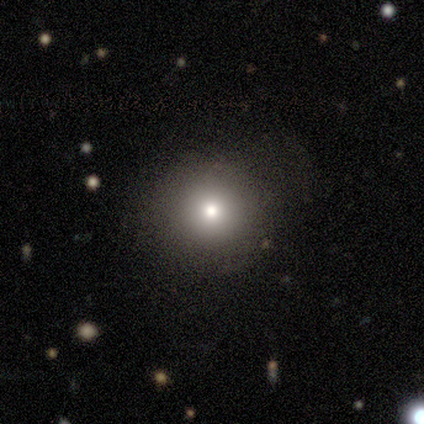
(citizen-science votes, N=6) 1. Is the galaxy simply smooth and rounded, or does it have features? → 67% smooth, 17% featured or disk, 17% star or artifact.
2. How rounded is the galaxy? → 75% round, 25% in between, 0% cigar-shaped.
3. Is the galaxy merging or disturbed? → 100% none, 0% minor disturbance, 0% major disturbance, 0% merger.